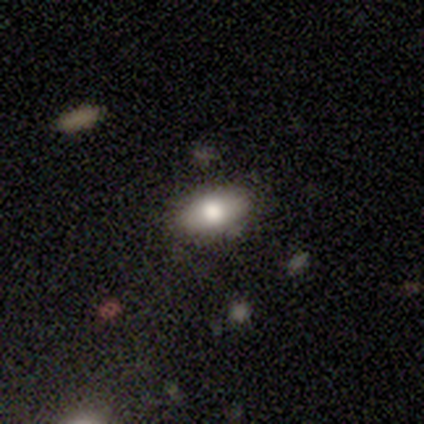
smooth_or_featured: smooth (p=0.80) [alt: featured or disk p=0.20]
how_rounded: in between (p=1.00)
merging: none (p=0.80) [alt: merger p=0.20]